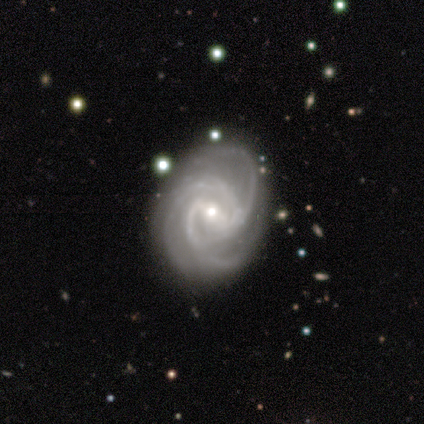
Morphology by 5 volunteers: Smooth or featured?
  - featured or disk: 100% *
  - smooth: 0%
  - star or artifact: 0%
Edge-on disk?
  - no: 100% *
  - yes: 0%
Bar?
  - weak: 60% *
  - strong: 40%
  - no: 0%
Spiral arms?
  - yes: 100% *
  - no: 0%
Spiral winding?
  - medium: 60% *
  - tight: 40%
  - loose: 0%
Spiral arm count?
  - 4: 60% *
  - 3: 40%
  - 1: 0%
  - 2: 0%
  - more than 4: 0%
  - can't tell: 0%
Bulge size?
  - small: 60% *
  - large: 20%
  - moderate: 20%
  - dominant: 0%
  - none: 0%
Merging?
  - none: 80% *
  - minor disturbance: 20%
  - major disturbance: 0%
  - merger: 0%